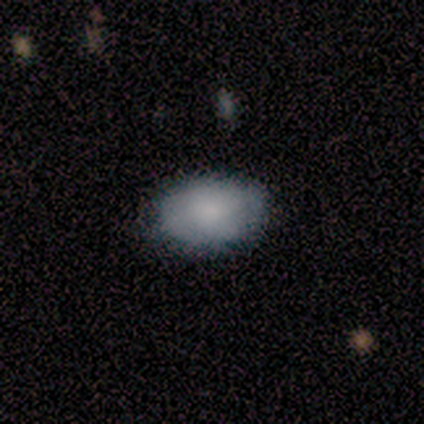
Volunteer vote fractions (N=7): A smooth galaxy with no disk features (71%) that is in between round and cigar-shaped (100%).

Vote fractions:
- Smooth or featured? smooth: 71% / featured or disk: 29% / star or artifact: 0%
- How rounded? in between: 100% / round: 0% / cigar-shaped: 0%
- Merging? none: 71% / minor disturbance: 29% / major disturbance: 0% / merger: 0%